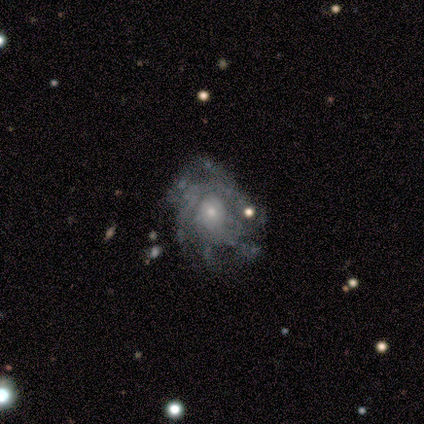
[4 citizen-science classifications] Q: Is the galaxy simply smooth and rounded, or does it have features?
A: featured or disk — 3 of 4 (75%).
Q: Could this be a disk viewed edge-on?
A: no — 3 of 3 (100%).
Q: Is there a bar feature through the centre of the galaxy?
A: no — 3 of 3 (100%).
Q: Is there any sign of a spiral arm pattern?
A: no — 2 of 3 (67%).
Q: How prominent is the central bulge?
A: small — 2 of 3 (67%).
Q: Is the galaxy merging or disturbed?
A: none — 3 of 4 (75%).